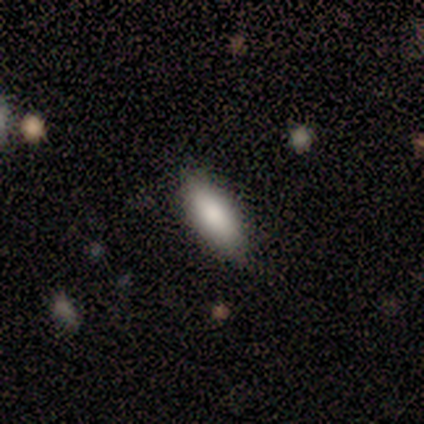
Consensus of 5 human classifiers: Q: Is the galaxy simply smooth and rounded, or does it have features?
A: smooth — 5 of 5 (100%).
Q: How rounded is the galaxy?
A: in between — 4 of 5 (80%).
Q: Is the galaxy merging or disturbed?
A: none — 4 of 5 (80%).